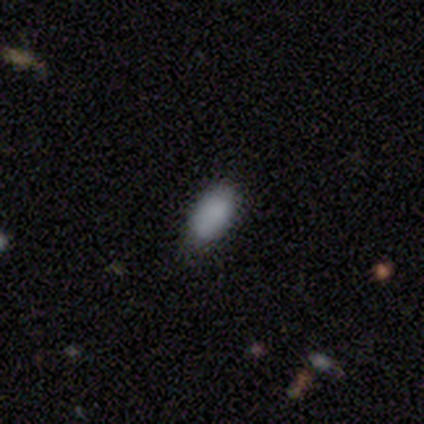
This appears to be a smooth galaxy with no disk features (75%) that is in between round and cigar-shaped (67%). Merging: none (100%).